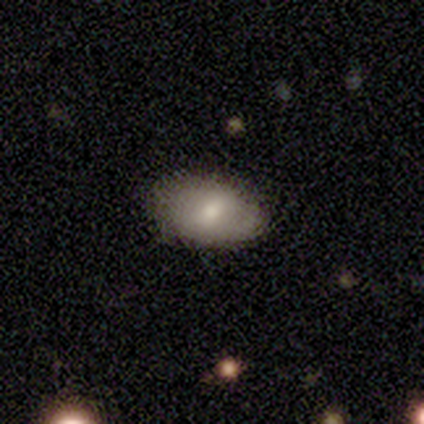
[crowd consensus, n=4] Morphology: type=smooth (50%, tied with featured or disk); roundness=in between (100%); merging=minor disturbance (50%).